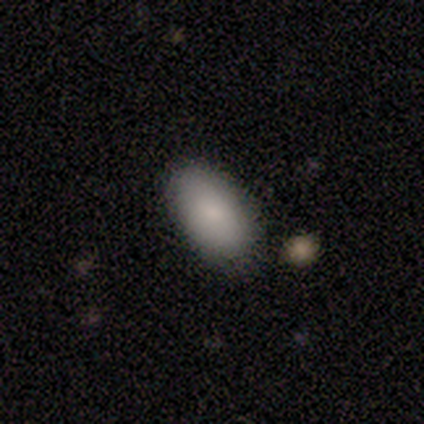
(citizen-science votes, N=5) Smooth or featured: smooth — 100%
How rounded: in between — 100%
Merging: none — 80% (minor disturbance — 20%)